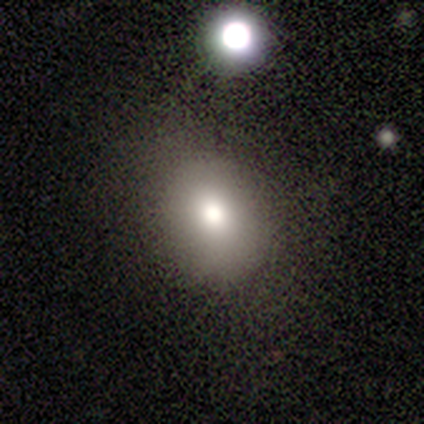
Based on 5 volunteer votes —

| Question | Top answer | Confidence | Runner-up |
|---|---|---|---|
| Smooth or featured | smooth | 60% | featured or disk (40%) |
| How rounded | in between | 67% | round (33%) |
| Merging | none | 60% | minor disturbance (40%) |